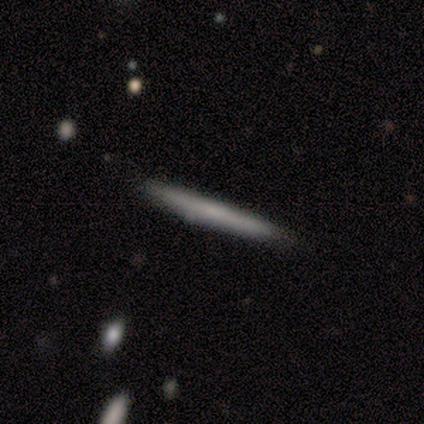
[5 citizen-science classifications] Smooth or featured: smooth — 100%
How rounded: cigar-shaped — 100%
Merging: none — 100%